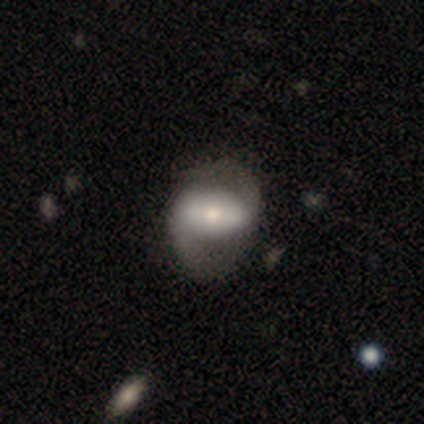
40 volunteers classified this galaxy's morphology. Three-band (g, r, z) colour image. It shows a featured or disk galaxy (72%) with a strong bar (46%), 2 (95%) medium (45%) spiral arms (79%) and a moderate central bulge (57%). Merging: none (68%).